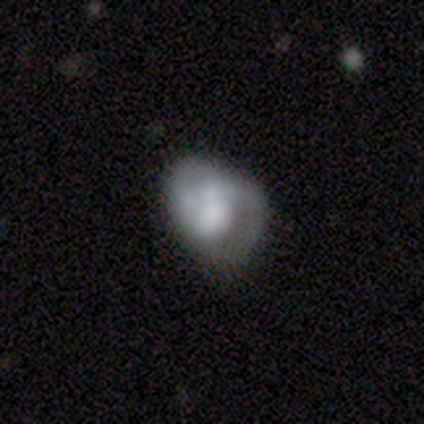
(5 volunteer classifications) Morphology: type=smooth (80%); roundness=round (50%, tied with in between); merging=minor disturbance (60%).